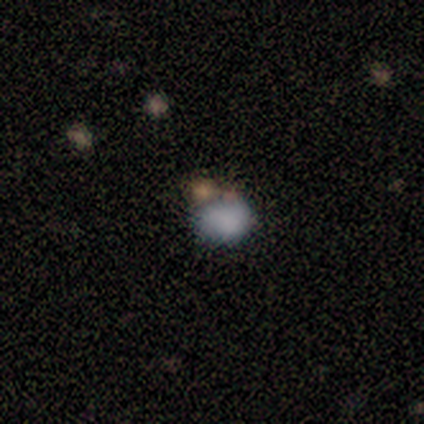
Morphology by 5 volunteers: smooth_or_featured: smooth (p=0.60) [alt: featured or disk p=0.40]
how_rounded: in between (p=0.67) [alt: round p=0.33]
merging: minor disturbance (p=0.60) [alt: none p=0.40]